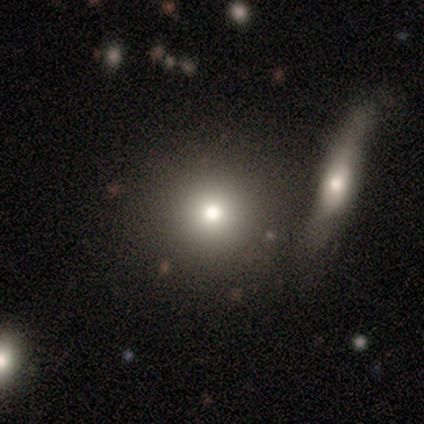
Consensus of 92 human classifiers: Smooth or featured? 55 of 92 (60%) said smooth. How rounded? 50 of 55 (91%) said round. Merging? 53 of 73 (73%) said none.